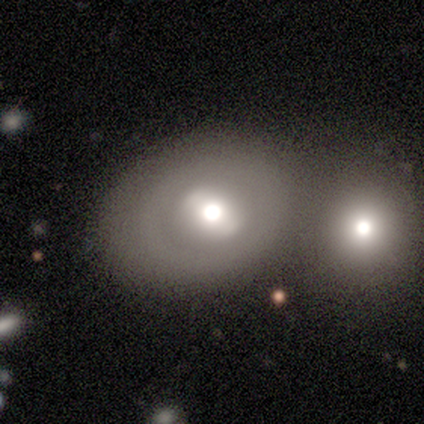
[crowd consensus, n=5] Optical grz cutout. It shows a featured or disk galaxy (60%) with no bar (67%), no spiral arms (100%) and a large central bulge (67%). Merging: none (40%, tied with minor disturbance).